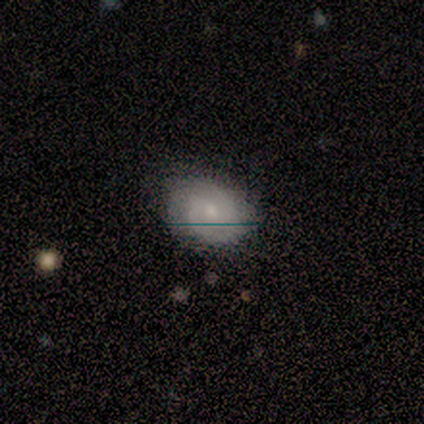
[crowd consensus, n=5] This appears to be a featured or disk galaxy (80%) with a weak bar (50%, tied with no), 2 (75%) tight (75%) spiral arms (100%) and a small central bulge (100%). Merging: none (80%).